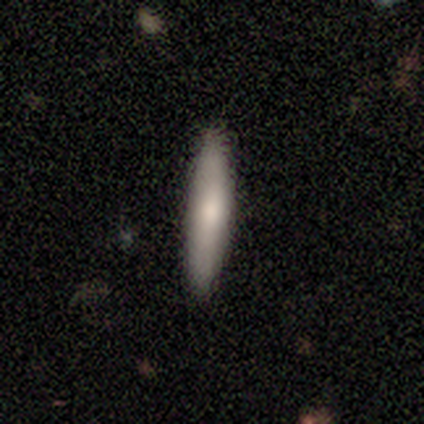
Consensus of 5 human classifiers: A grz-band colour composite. It shows a featured or disk galaxy (60%) viewed edge-on (67%) with no central bulge (100%). Merging: none (60%).